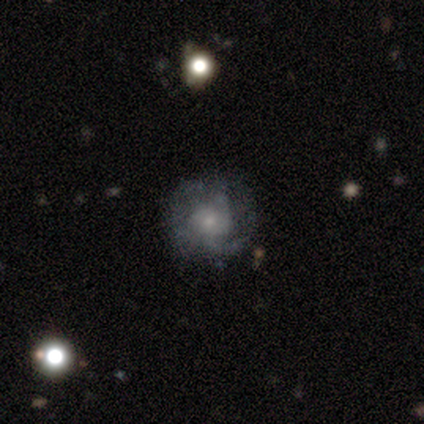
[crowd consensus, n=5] Overall: featured or disk (100%). Edge-on disk: no (100%). Bar: no (100%). Spiral arms: yes (100%). Spiral arm count: 3 (40%, tied with can't tell). Spiral winding: medium (60%; tight 40%). Bulge size: small (60%; moderate 40%). Merging: none (60%; minor disturbance 20%).